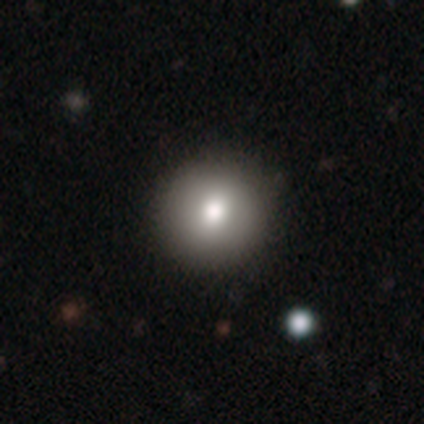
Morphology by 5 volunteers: A smooth galaxy with no disk features (80%) that is round (75%).

Vote fractions:
- Smooth or featured? smooth: 80% / featured or disk: 20% / star or artifact: 0%
- How rounded? round: 75% / in between: 25% / cigar-shaped: 0%
- Merging? none: 80% / minor disturbance: 20% / major disturbance: 0% / merger: 0%